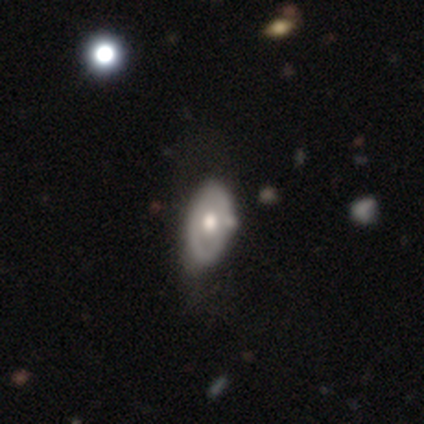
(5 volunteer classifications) A featured or disk galaxy (60%) with no bar (100%), no spiral arms (100%) and a moderate central bulge (100%). Merging: none (75%).